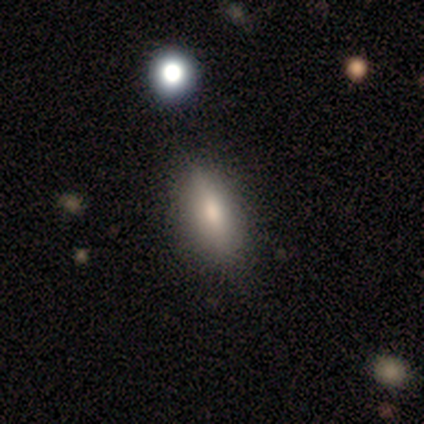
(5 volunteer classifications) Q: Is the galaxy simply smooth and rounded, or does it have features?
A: smooth — 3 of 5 (60%).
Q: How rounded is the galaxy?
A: in between — 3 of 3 (100%).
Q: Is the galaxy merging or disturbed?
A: none — 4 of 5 (80%).